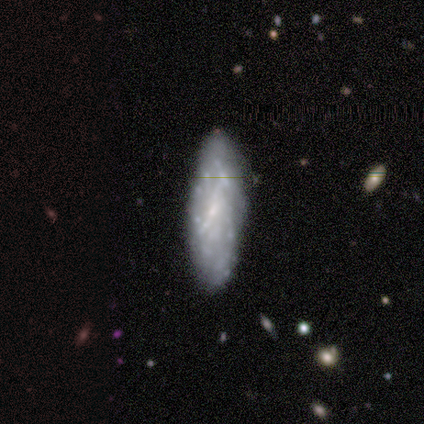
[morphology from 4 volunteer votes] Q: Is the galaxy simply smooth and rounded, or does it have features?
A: featured or disk — 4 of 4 (100%).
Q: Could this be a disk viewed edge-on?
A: yes — 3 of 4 (75%).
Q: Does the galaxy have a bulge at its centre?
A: none — 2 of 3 (67%).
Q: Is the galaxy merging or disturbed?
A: none — 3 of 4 (75%).